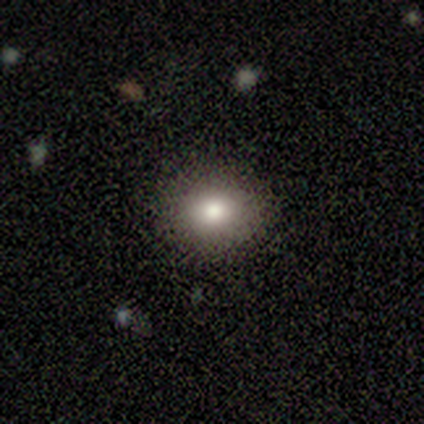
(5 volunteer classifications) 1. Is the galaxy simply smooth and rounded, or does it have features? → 60% smooth, 20% featured or disk, 20% star or artifact.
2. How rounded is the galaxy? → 67% round, 33% in between, 0% cigar-shaped.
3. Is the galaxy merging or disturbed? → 100% none, 0% minor disturbance, 0% major disturbance, 0% merger.